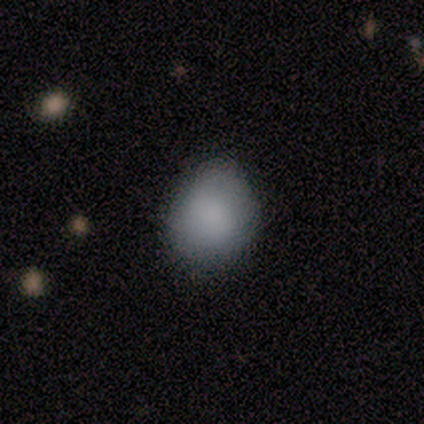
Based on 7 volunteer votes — Overall: smooth (86%). How rounded: round (50%, tied with in between). Merging: none (67%; minor disturbance 33%).